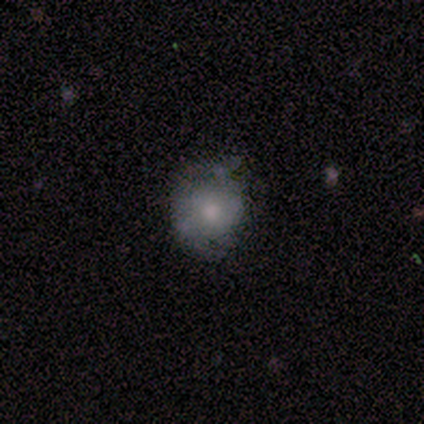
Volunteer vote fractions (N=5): smooth_or_featured: smooth (p=0.60) [alt: featured or disk p=0.20]
how_rounded: round (p=1.00)
merging: none (p=0.50) [alt: minor disturbance p=0.25]